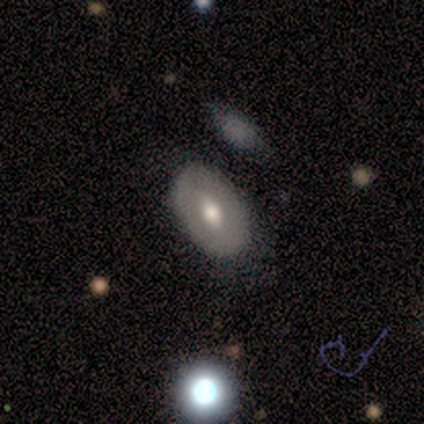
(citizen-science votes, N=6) smooth 50% (tied), featured or disk 50% (tied), star or artifact 0%. Down the decision tree: how rounded — in between (100%); merging — none (100%).